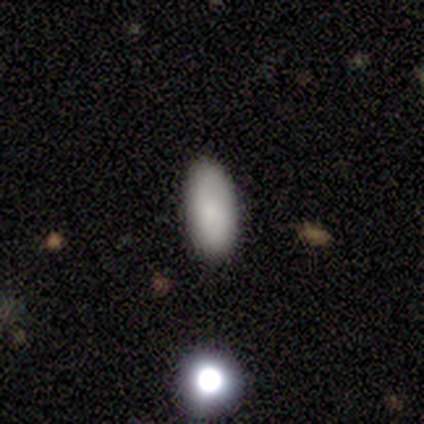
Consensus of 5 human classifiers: A smooth galaxy with no disk features (80%) that is in between round and cigar-shaped (100%). Merging: none (100%).